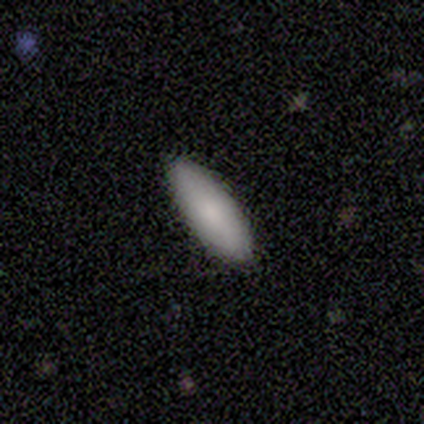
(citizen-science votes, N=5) This is clearly a smooth galaxy (100%). How rounded: clearly in between (80%). Merging: clearly none (100%).